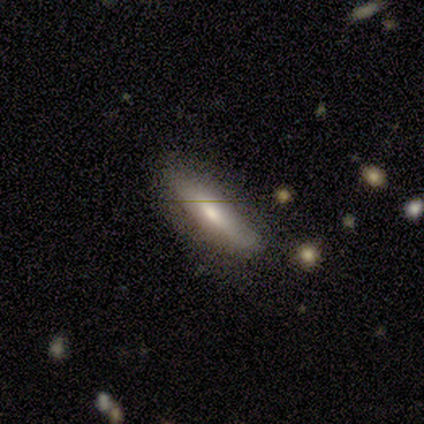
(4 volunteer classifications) This appears to be a smooth galaxy with no disk features (50%) that is cigar-shaped (100%). Merging: none (67%).